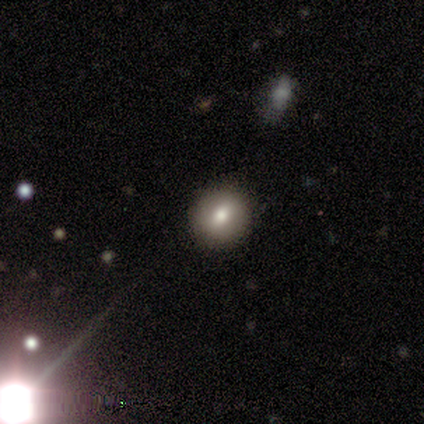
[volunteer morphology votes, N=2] A featured or disk galaxy (50%, tied with star or artifact) with no bar (100%), no spiral arms (100%) and a moderate central bulge (100%).

Vote fractions:
- Smooth or featured? featured or disk: 50% (tied) / star or artifact: 50% (tied) / smooth: 0%
- Edge-on disk? no: 100% / yes: 0%
- Bar? no: 100% / strong: 0% / weak: 0%
- Spiral arms? no: 100% / yes: 0%
- Bulge size? moderate: 100% / dominant: 0% / large: 0% / small: 0% / none: 0%
- Merging? none: 100% / minor disturbance: 0% / major disturbance: 0% / merger: 0%